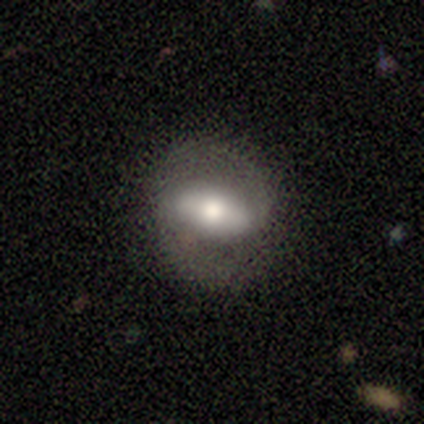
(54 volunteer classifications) featured or disk 76%, smooth 22%, star or artifact 2%. Down the decision tree: edge-on disk — no (88%); bar — strong (44%); spiral arms — yes (81%); spiral arm count — 2 (100%); spiral winding — medium (66%); bulge size — moderate (69%); merging — none (81%).